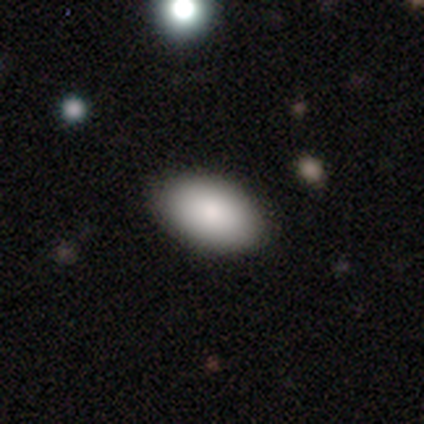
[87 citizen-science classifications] Q: Smooth or featured?
A: smooth (84%); runner-up: star or artifact (10%)
Q: How rounded?
A: in between (97%); runner-up: round (1%)
Q: Merging?
A: none (85%); runner-up: minor disturbance (12%)